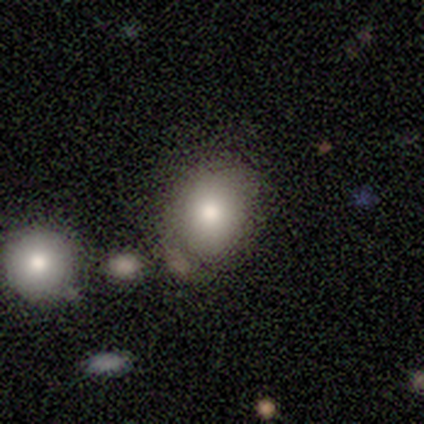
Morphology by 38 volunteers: Smooth or featured?
  - smooth: 74% *
  - featured or disk: 16%
  - star or artifact: 11%
How rounded?
  - round: 75% *
  - in between: 25%
  - cigar-shaped: 0%
Merging?
  - none: 65% *
  - merger: 24%
  - minor disturbance: 9%
  - major disturbance: 3%